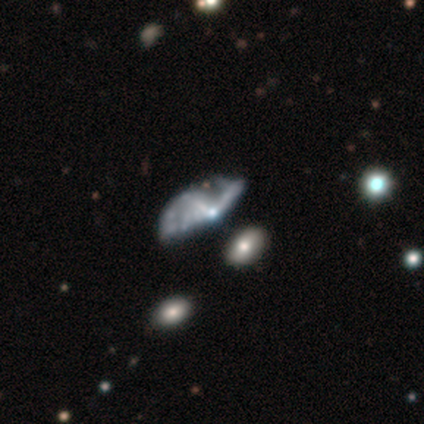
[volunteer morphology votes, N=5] Volunteers were most divided on "smooth or featured": star or artifact: 60%, featured or disk: 40%, smooth: 0%.